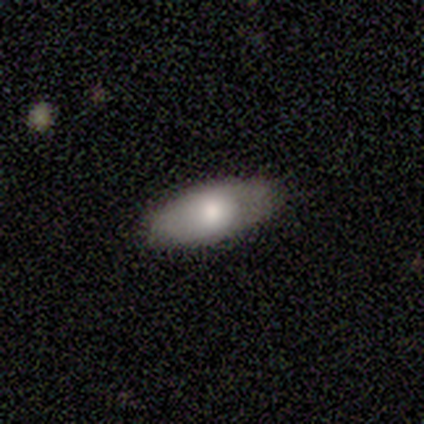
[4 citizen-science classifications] smooth-or-featured: smooth: 75% | featured or disk: 25% | star or artifact: 0%
  how-rounded: in between: 100% | round: 0% | cigar-shaped: 0%
  merging: none: 75% | major disturbance: 25% | minor disturbance: 0% | merger: 0%